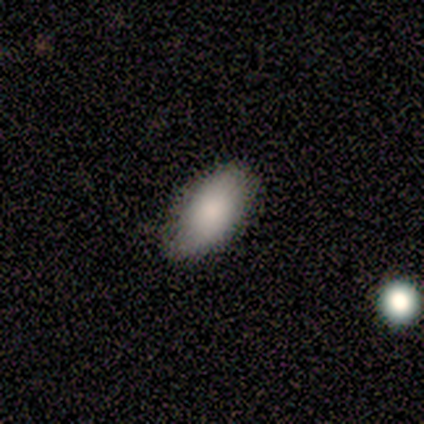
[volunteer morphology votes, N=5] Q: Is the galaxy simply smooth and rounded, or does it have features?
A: smooth — 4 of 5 (80%).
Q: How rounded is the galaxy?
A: in between — 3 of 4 (75%).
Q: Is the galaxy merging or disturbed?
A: none — 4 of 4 (100%).